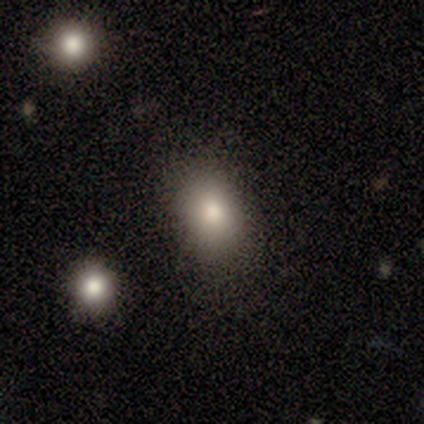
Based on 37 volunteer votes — Morphology: type=smooth (78%); roundness=in between (66%); merging=none (77%).